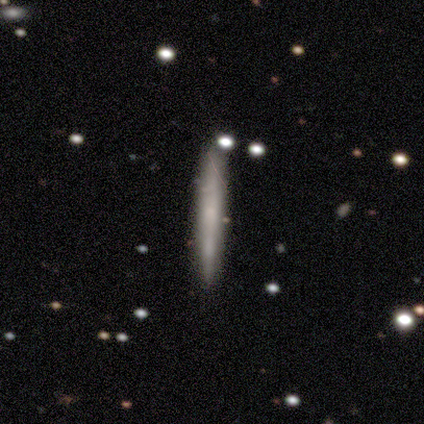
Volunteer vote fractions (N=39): A smooth galaxy with no disk features (62%) that is cigar-shaped (100%). Merging: none (79%).